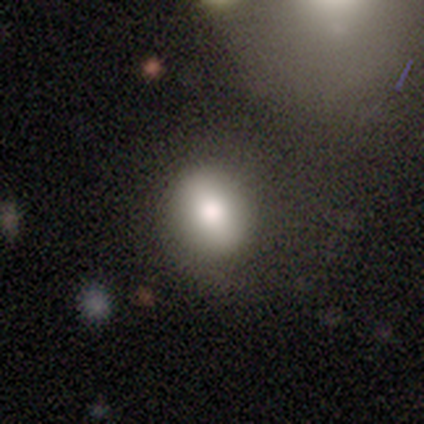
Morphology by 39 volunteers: This appears to be a smooth galaxy with no disk features (77%) that is round (57%). Merging: none (33%).